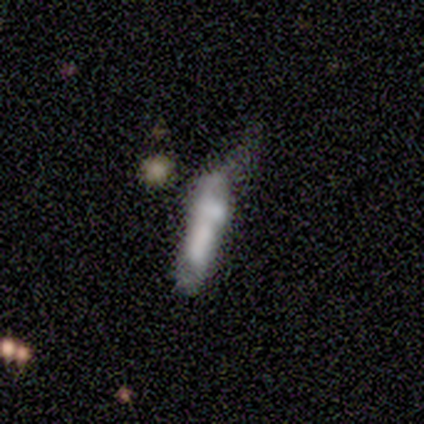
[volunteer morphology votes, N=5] smooth_or_featured: smooth (p=0.60) [alt: featured or disk p=0.40]
how_rounded: cigar-shaped (p=1.00)
merging: merger (p=0.40) [alt: none p=0.20]